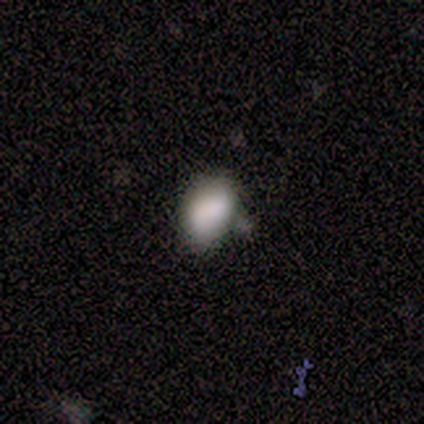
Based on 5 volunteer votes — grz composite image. It shows a smooth galaxy with no disk features (60%) that is in between round and cigar-shaped (67%). Merging: none (50%).